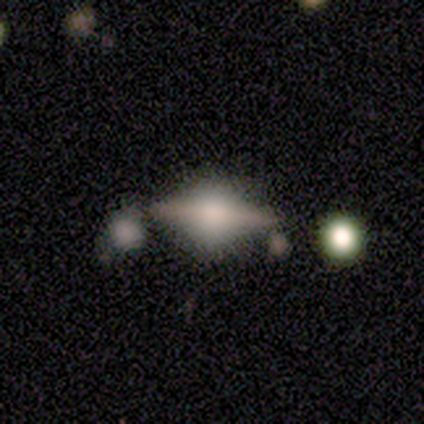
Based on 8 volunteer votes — This appears to be a featured or disk galaxy (75%) viewed edge-on (83%) with a rounded central bulge (100%). Merging: none (86%).